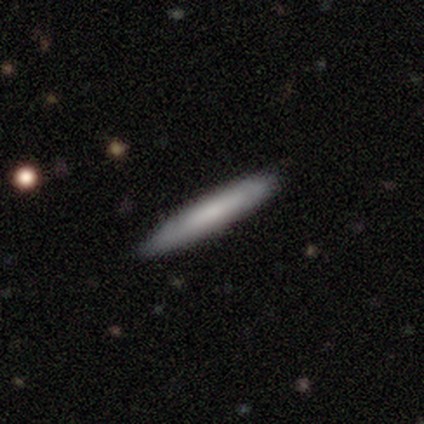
Volunteers were most divided on "smooth or featured": smooth: 60%, featured or disk: 40%, star or artifact: 0%. More confident: how rounded — cigar-shaped (100%); merging — none (100%).